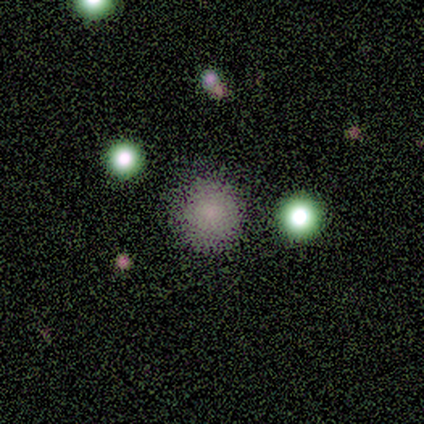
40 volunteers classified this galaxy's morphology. Smooth or featured: smooth — 78% (star or artifact — 18%)
How rounded: round — 100%
Merging: none — 82% (minor disturbance — 12%)